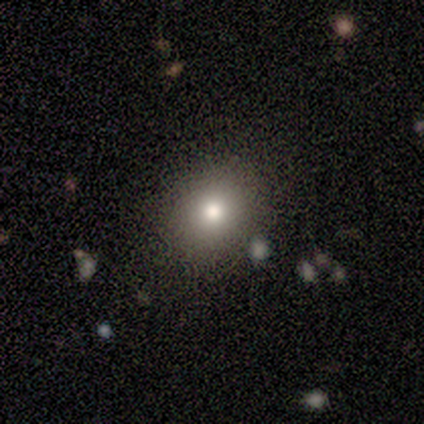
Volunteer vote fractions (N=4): smooth 75%, star or artifact 25%, featured or disk 0%. Down the decision tree: how rounded — round (100%); merging — none (100%).